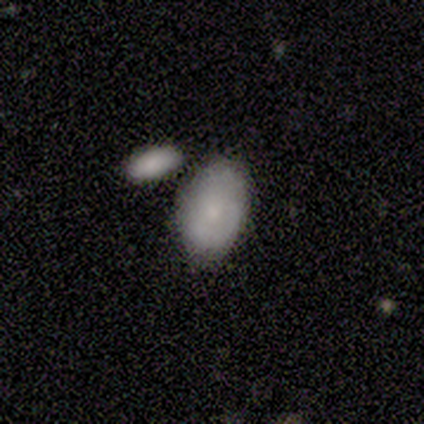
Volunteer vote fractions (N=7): smooth_or_featured: smooth (p=0.57) [alt: featured or disk p=0.43]
how_rounded: in between (p=1.00)
merging: none (p=0.71) [alt: merger p=0.29]